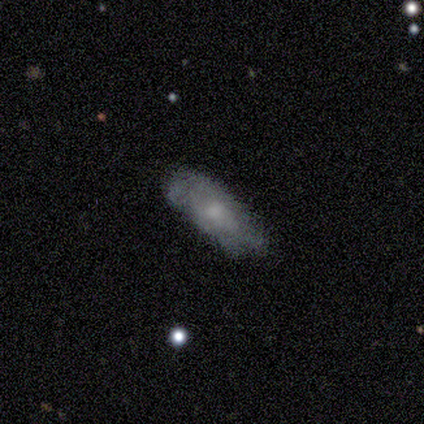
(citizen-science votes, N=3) Volunteers were most divided on "spiral arms" (2-way tie): yes: 50%, no: 50%; "bulge size" (2-way tie): small: 50%, none: 50%, dominant: 0%, large: 0%, moderate: 0%. More confident: edge-on disk — no (100%); bar — no (100%); spiral winding — tight (100%); spiral arm count — can't tell (100%); merging — none (100%); smooth or featured — featured or disk (67%).